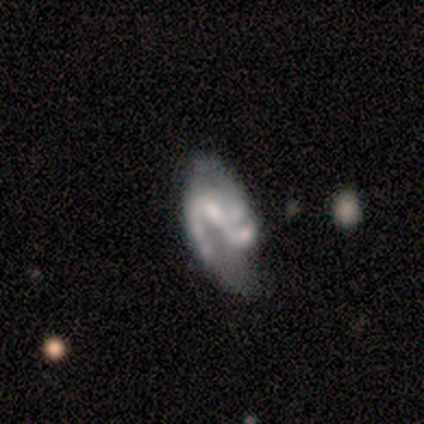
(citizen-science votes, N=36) Smooth or featured? 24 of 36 (67%) said featured or disk. Edge-on disk? 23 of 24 (96%) said no. Bar? 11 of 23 (48%) said weak. Spiral arms? 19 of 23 (83%) said yes. Spiral winding? 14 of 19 (74%) said medium. Spiral arm count? 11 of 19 (58%) said 2. Bulge size? 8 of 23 (35%) said moderate. Merging? 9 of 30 (30%) said none.